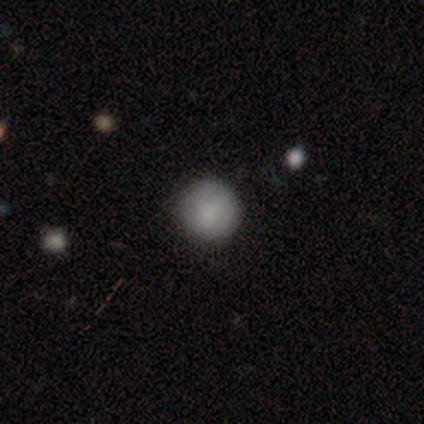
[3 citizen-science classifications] Smooth or featured?
  - smooth: 100% *
  - featured or disk: 0%
  - star or artifact: 0%
How rounded?
  - round: 100% *
  - in between: 0%
  - cigar-shaped: 0%
Merging?
  - none: 67% *
  - merger: 33%
  - minor disturbance: 0%
  - major disturbance: 0%